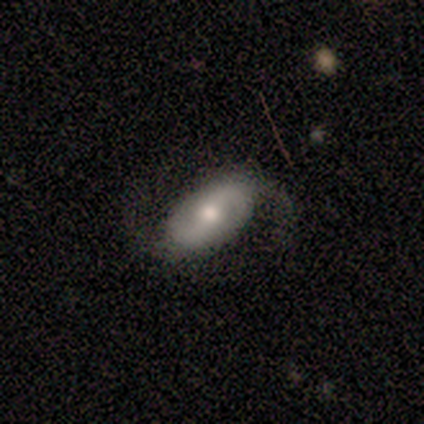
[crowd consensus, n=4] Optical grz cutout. It shows a featured or disk galaxy (100%) with a strong bar (50%), 2 (100%) medium (50%, tied with loose) spiral arms (100%) and a moderate central bulge (100%). Merging: none (100%).